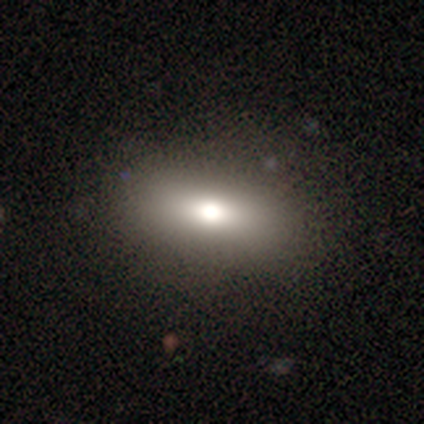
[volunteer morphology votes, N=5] Smooth or featured?
  - smooth: 80% *
  - featured or disk: 20%
  - star or artifact: 0%
How rounded?
  - in between: 50% * (tied)
  - cigar-shaped: 50% * (tied)
  - round: 0%
Merging?
  - none: 100% *
  - minor disturbance: 0%
  - major disturbance: 0%
  - merger: 0%